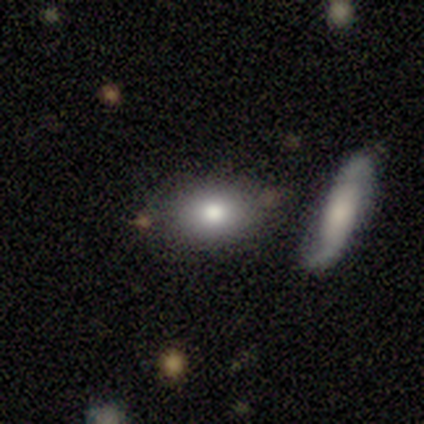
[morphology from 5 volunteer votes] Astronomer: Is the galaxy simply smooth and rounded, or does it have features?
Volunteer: smooth — 100%.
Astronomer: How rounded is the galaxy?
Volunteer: in between — 80%.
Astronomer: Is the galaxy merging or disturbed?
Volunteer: none — 40%, tied with minor disturbance at 40%.